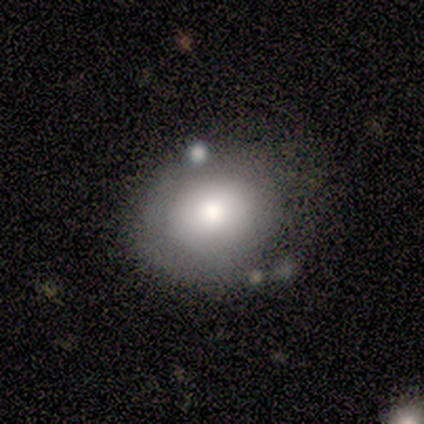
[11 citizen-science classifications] Smooth or featured: smooth — 82% (featured or disk — 18%)
How rounded: round — 67% (in between — 33%)
Merging: none — 64% (minor disturbance — 18%)